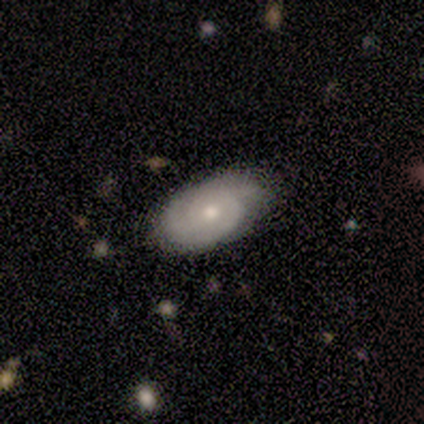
Morphology: type=featured or disk (60%); edge-on=no (100%); bar=no (67%); spiral arms=yes (100%); winding=tight (100%); arm count=1 (33%, tied with 2 and can't tell); bulge=small (67%); merging=none (60%).